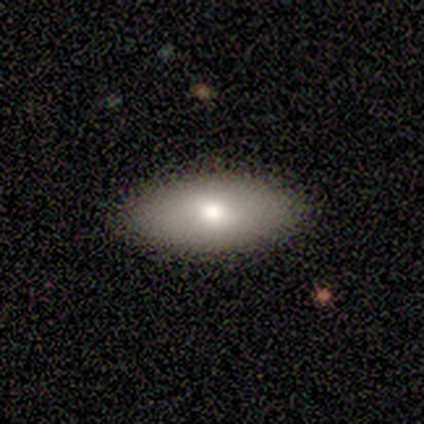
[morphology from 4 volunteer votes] This appears to be a smooth galaxy with no disk features (75%) that is in between round and cigar-shaped (100%). Merging: none (75%).